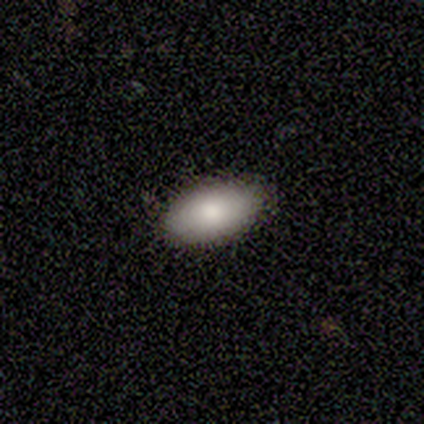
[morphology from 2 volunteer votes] smooth 100%, featured or disk 0%, star or artifact 0%. Down the decision tree: how rounded — in between (100%); merging — none (100%).